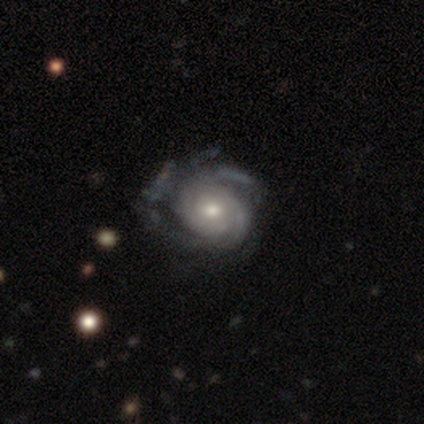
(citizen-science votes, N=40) Smooth or featured? 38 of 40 (95%) said featured or disk. Edge-on disk? 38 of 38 (100%) said no. Bar? 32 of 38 (84%) said no. Spiral arms? 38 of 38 (100%) said yes. Spiral winding? 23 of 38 (61%) said tight. Spiral arm count? 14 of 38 (37%) said can't tell. Bulge size? 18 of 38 (47%) said moderate. Merging? 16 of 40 (40%) said none.